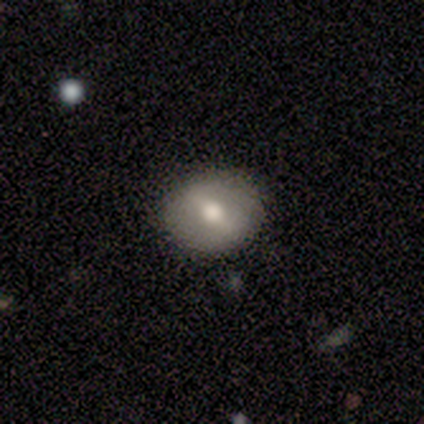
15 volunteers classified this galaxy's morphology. Q: Smooth or featured?
A: featured or disk (53%); runner-up: smooth (33%)
Q: Edge-on disk?
A: no (100%)
Q: Bar?
A: strong (50%); tied with: weak (50%)
Q: Spiral arms?
A: no (88%); runner-up: yes (12%)
Q: Bulge size?
A: moderate (88%); runner-up: dominant (12%)
Q: Merging?
A: none (100%)